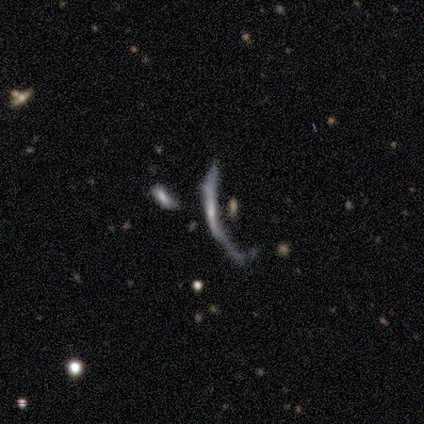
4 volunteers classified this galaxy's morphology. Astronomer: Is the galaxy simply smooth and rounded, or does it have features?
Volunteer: smooth — 50%.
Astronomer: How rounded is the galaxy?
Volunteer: cigar-shaped — 100%.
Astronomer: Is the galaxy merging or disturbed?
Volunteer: major disturbance — 100%.